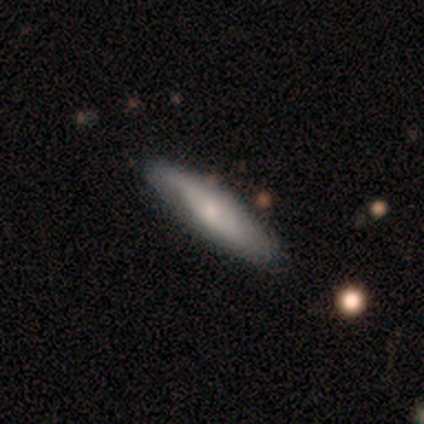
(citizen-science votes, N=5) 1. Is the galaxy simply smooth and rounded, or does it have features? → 60% featured or disk, 40% smooth, 0% star or artifact.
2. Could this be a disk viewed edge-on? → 67% yes, 33% no.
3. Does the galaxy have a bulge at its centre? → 100% rounded, 0% boxy, 0% none.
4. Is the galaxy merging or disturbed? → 100% none, 0% minor disturbance, 0% major disturbance, 0% merger.